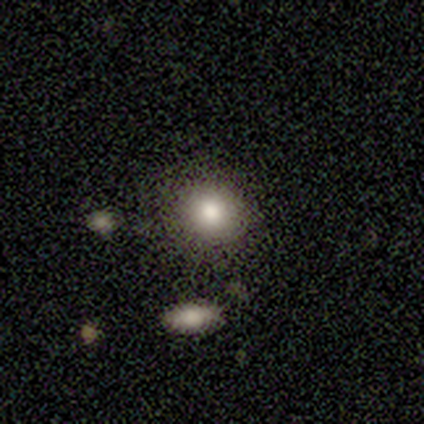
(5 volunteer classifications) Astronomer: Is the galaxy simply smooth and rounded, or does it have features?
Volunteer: smooth — 100%.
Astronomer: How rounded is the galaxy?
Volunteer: round — 80%.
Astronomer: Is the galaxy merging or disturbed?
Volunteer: none — 100%.